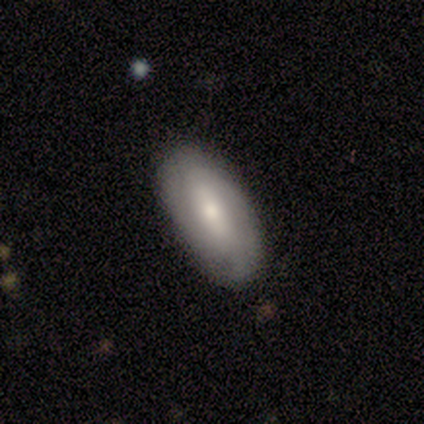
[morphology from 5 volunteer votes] Overall: smooth (60%; featured or disk 40%). How rounded: in between (100%). Merging: none (100%).